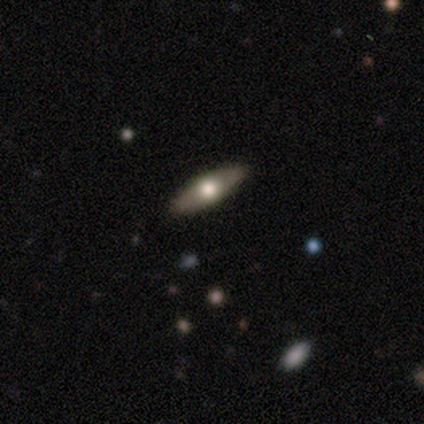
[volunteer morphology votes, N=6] Smooth or featured? smooth (50%, tied with featured or disk)
How rounded? cigar-shaped (100%)
Merging? none (83%)